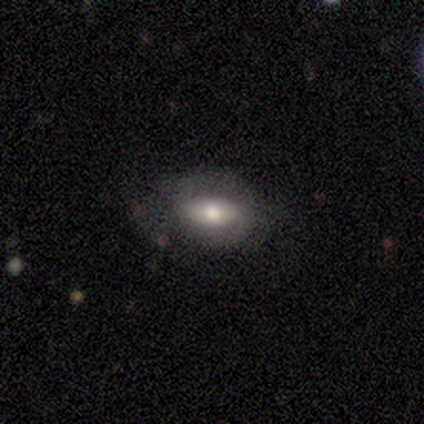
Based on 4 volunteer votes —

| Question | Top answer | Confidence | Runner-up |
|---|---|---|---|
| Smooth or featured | smooth | 100% | — |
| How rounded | in between | 100% | — |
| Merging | none | 75% | minor disturbance (25%) |